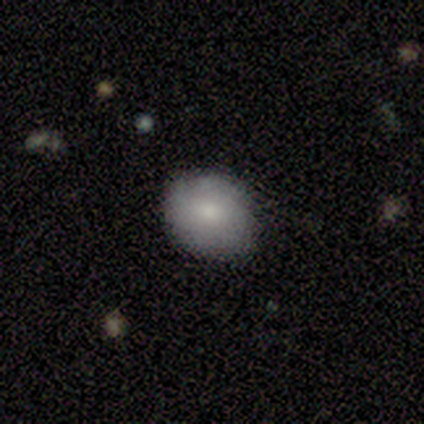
Volunteers were most divided on "how rounded": round: 75%, in between: 25%, cigar-shaped: 0%. More confident: merging — none (100%); smooth or featured — smooth (80%).